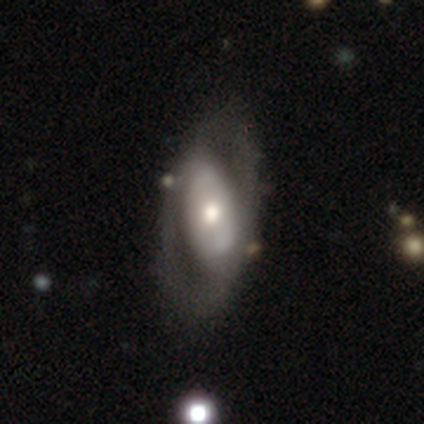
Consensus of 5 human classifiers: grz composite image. It shows a featured or disk galaxy (80%) with no bar (50%), 2 (67%) loose (67%) spiral arms (75%) and a moderate central bulge (100%). Merging: none (60%).